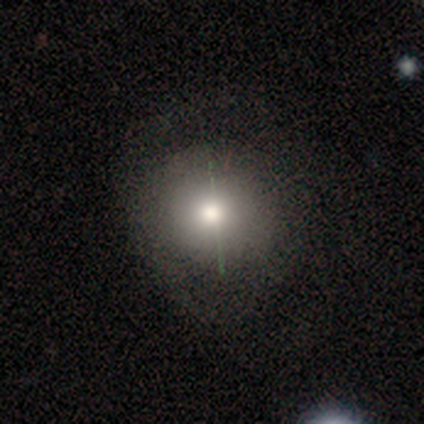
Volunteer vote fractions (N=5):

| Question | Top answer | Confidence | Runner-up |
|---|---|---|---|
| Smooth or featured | smooth | 80% | featured or disk (20%) |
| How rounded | round | 100% | — |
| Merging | none | 80% | major disturbance (20%) |